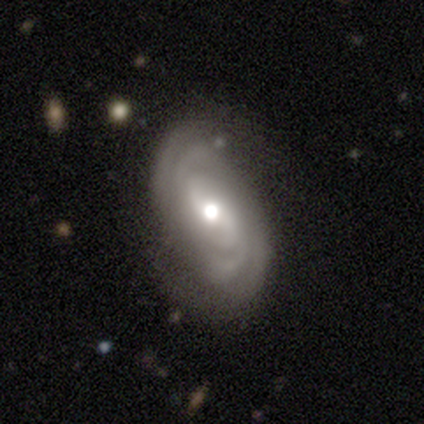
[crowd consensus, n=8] A featured or disk galaxy (100%) with a weak bar (50%), 2 (38%, tied with more than 4) medium (50%) spiral arms (100%) and a moderate central bulge (88%). Merging: none (62%).